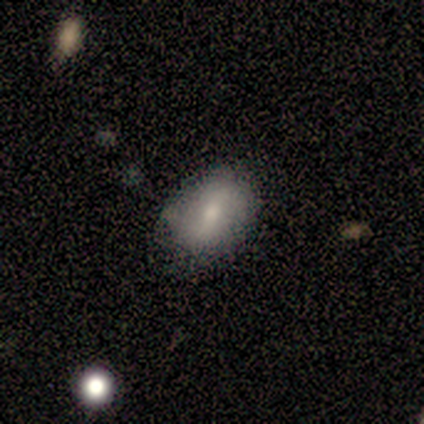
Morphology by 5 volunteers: Smooth or featured?
  - smooth: 60% *
  - featured or disk: 40%
  - star or artifact: 0%
How rounded?
  - in between: 67% *
  - round: 33%
  - cigar-shaped: 0%
Merging?
  - none: 60% *
  - minor disturbance: 40%
  - major disturbance: 0%
  - merger: 0%